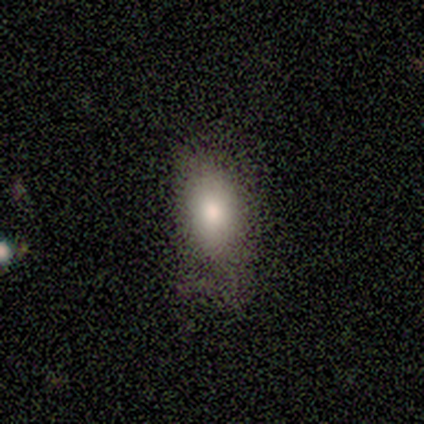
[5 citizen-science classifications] A smooth galaxy with no disk features (80%) that is in between round and cigar-shaped (100%). Merging: none (60%).